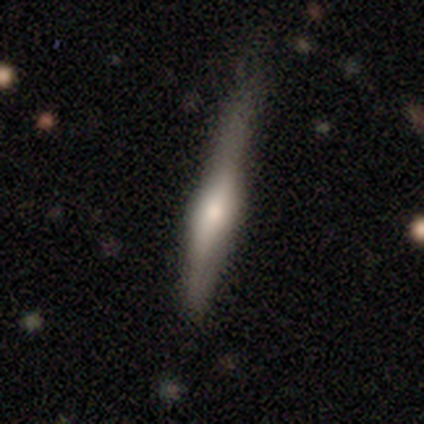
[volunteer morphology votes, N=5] Smooth or featured? smooth (60%)
How rounded? cigar-shaped (100%)
Merging? none (100%)